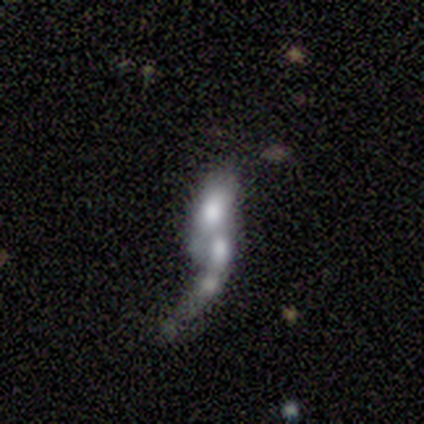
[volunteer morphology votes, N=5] A smooth galaxy with no disk features (40%, tied with star or artifact) that is in between round and cigar-shaped (50%, tied with cigar-shaped).

Vote fractions:
- Smooth or featured? smooth: 40% (tied) / star or artifact: 40% (tied) / featured or disk: 20%
- How rounded? in between: 50% (tied) / cigar-shaped: 50% (tied) / round: 0%
- Merging? none: 33% (tied) / major disturbance: 33% (tied) / merger: 33% (tied) / minor disturbance: 0%